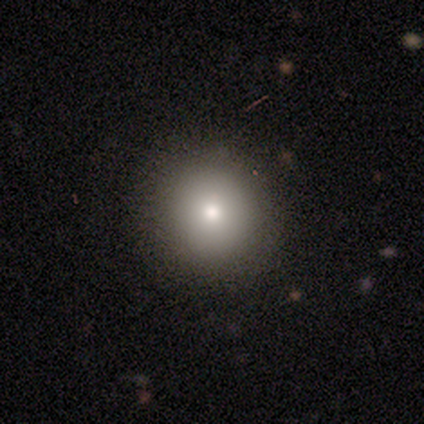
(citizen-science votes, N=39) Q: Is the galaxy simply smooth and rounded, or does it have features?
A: smooth — 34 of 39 (87%).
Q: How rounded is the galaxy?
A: round — 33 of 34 (97%).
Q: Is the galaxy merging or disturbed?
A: none — 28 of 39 (72%).